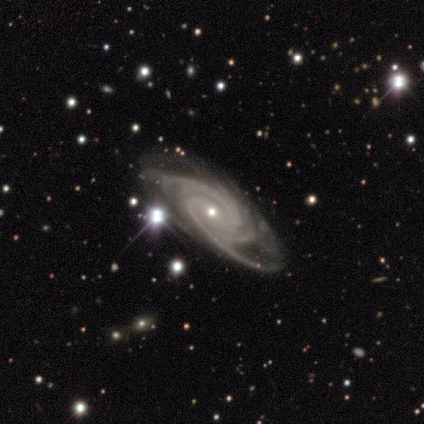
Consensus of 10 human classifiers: Smooth or featured?
  - featured or disk: 100% *
  - smooth: 0%
  - star or artifact: 0%
Edge-on disk?
  - no: 90% *
  - yes: 10%
Bar?
  - no: 67% *
  - weak: 22%
  - strong: 11%
Spiral arms?
  - yes: 100% *
  - no: 0%
Spiral winding?
  - medium: 56% *
  - tight: 33%
  - loose: 11%
Spiral arm count?
  - 4: 44% *
  - can't tell: 33%
  - 3: 22%
  - 1: 0%
  - 2: 0%
  - more than 4: 0%
Bulge size?
  - small: 67% *
  - moderate: 22%
  - large: 11%
  - dominant: 0%
  - none: 0%
Merging?
  - none: 50% * (tied)
  - minor disturbance: 50% * (tied)
  - major disturbance: 0%
  - merger: 0%